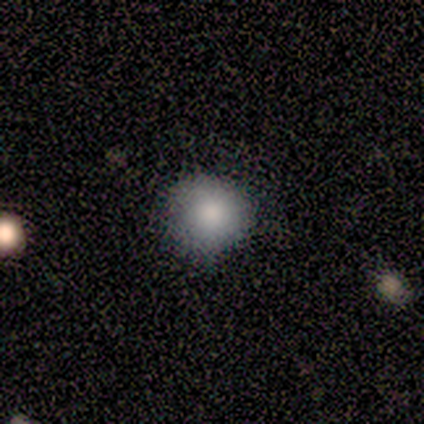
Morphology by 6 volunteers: Q: Smooth or featured?
A: smooth (83%); runner-up: featured or disk (17%)
Q: How rounded?
A: round (100%)
Q: Merging?
A: none (50%); tied with: minor disturbance (50%)